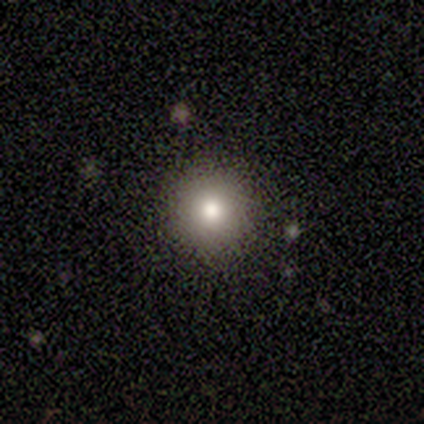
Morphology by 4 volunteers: smooth_or_featured: smooth (p=0.75) [alt: featured or disk p=0.25]
how_rounded: round (p=0.67) [alt: in between p=0.33]
merging: none (p=0.75) [alt: merger p=0.25]